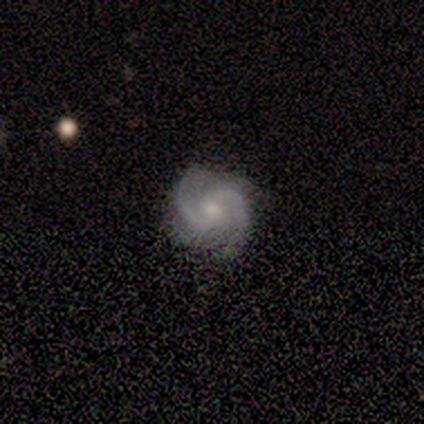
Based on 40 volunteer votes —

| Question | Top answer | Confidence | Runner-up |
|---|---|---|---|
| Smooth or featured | featured or disk | 100% | — |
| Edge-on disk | no | 98% | yes (2%) |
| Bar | no | 51% | weak (36%) |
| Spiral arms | yes | 100% | — |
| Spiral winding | medium | 62% | tight (31%) |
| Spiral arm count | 2 | 85% | 4 (8%) |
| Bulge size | small | 59% | moderate (33%) |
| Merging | none | 82% | minor disturbance (12%) |